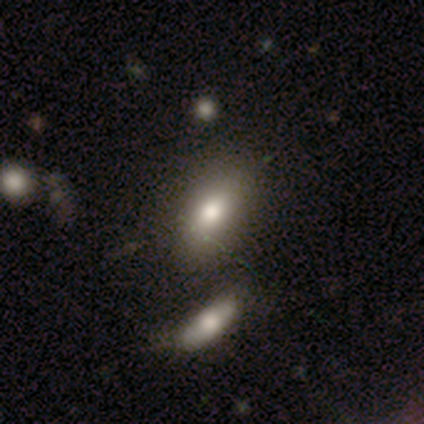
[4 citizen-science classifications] Smooth or featured?
  - smooth: 75% *
  - featured or disk: 25%
  - star or artifact: 0%
How rounded?
  - in between: 100% *
  - round: 0%
  - cigar-shaped: 0%
Merging?
  - none: 100% *
  - minor disturbance: 0%
  - major disturbance: 0%
  - merger: 0%